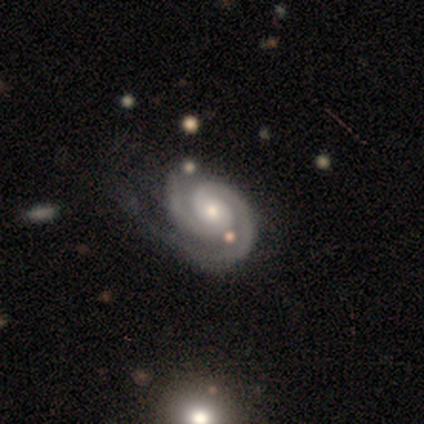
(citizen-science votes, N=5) Morphology: type=featured or disk (100%); edge-on=no (100%); bar=no (60%); spiral arms=yes (100%); winding=tight (60%); arm count=2 (100%); bulge=moderate (60%); merging=none (40%, tied with minor disturbance).